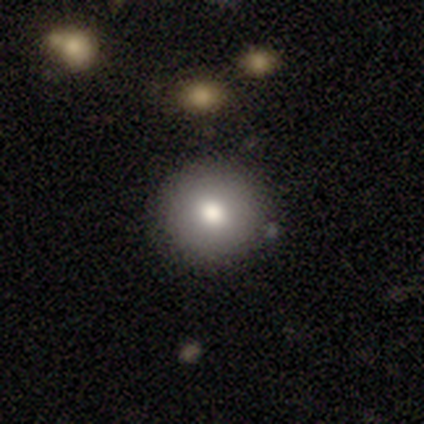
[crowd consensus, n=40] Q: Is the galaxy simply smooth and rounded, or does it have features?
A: smooth — 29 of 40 (72%).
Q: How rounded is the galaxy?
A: round — 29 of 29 (100%).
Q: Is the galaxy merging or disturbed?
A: none — 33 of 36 (92%).